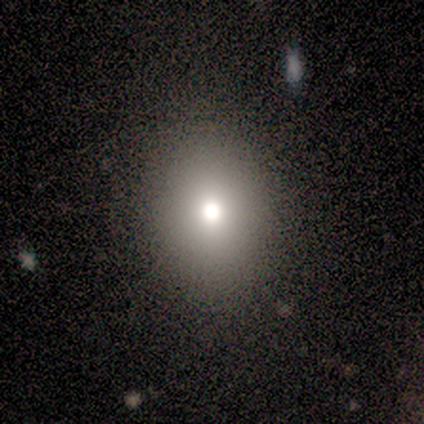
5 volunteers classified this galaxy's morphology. smooth_or_featured: smooth (p=0.60) [alt: featured or disk p=0.20]
how_rounded: in between (p=0.67) [alt: round p=0.33]
merging: none (p=1.00)